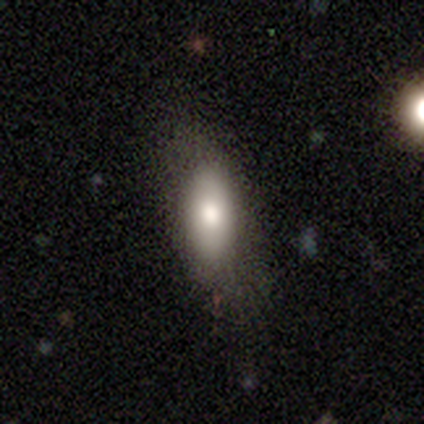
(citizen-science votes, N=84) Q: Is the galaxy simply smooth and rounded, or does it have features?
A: smooth — 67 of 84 (80%).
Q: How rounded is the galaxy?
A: in between — 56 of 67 (84%).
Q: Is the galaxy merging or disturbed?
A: none — 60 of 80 (75%).